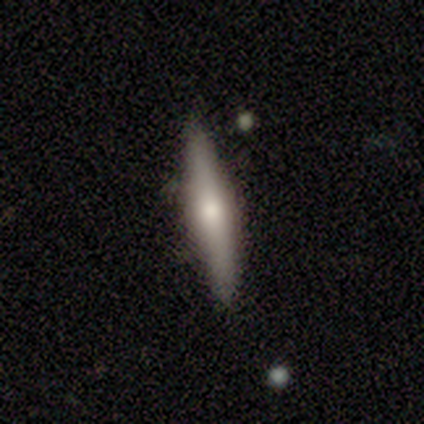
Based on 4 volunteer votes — Volunteers were most divided on "smooth or featured": smooth: 50%, featured or disk: 25%, star or artifact: 25%. More confident: how rounded — cigar-shaped (100%); merging — minor disturbance (67%).